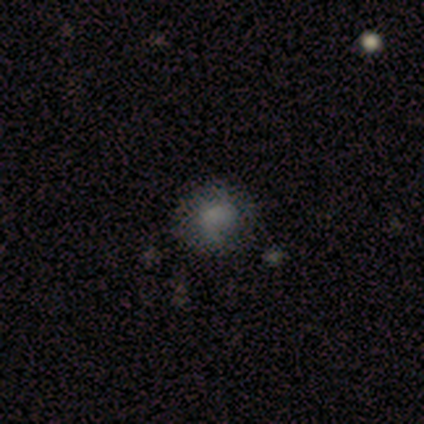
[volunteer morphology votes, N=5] smooth_or_featured: smooth (p=0.60) [alt: featured or disk p=0.40]
how_rounded: round (p=0.67) [alt: in between p=0.33]
merging: none (p=0.80) [alt: minor disturbance p=0.20]